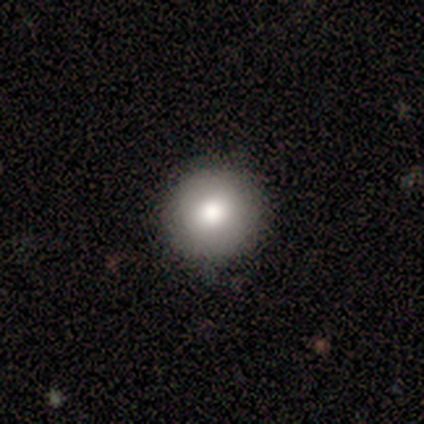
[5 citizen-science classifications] A smooth galaxy with no disk features (100%) that is round (100%).

Vote fractions:
- Smooth or featured? smooth: 100% / featured or disk: 0% / star or artifact: 0%
- How rounded? round: 100% / in between: 0% / cigar-shaped: 0%
- Merging? none: 100% / minor disturbance: 0% / major disturbance: 0% / merger: 0%